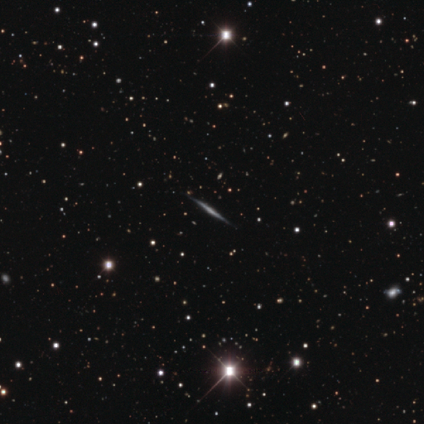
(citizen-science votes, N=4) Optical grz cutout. It shows a featured or disk galaxy (100%) viewed edge-on (100%) with no central bulge (50%, tied with rounded). Merging: none (100%).